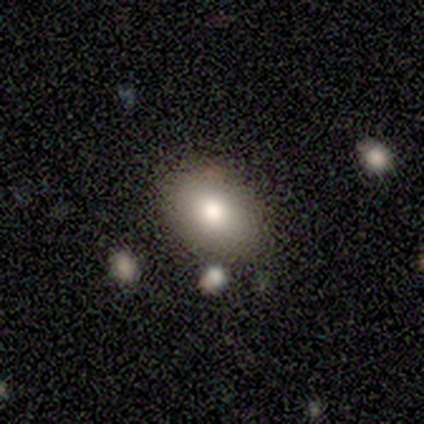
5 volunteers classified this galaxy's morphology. Overall: smooth (80%). How rounded: in between (100%). Merging: none (100%).